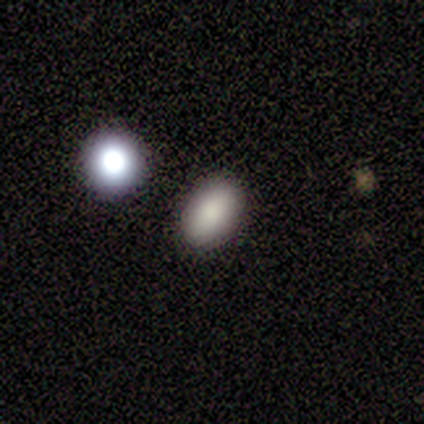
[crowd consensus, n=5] Smooth or featured? 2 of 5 (40%, tied with star or artifact) said smooth. How rounded? 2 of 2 (100%) said in between. Merging? 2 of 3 (67%) said minor disturbance.